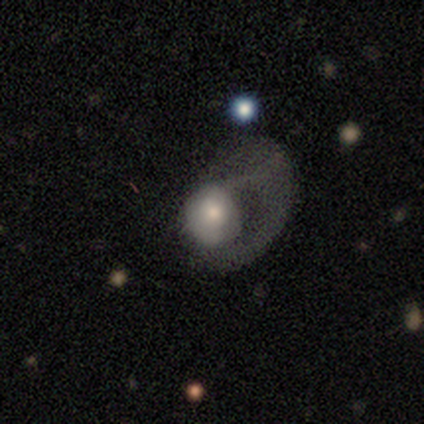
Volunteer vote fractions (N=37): This is possibly a featured or disk galaxy (46%). It is clearly not viewed edge-on (100%). Bar: likely no (76%). Spiral arm pattern: likely no (71%). Central bulge: possibly moderate (53%). Merging: clearly major disturbance (88%).